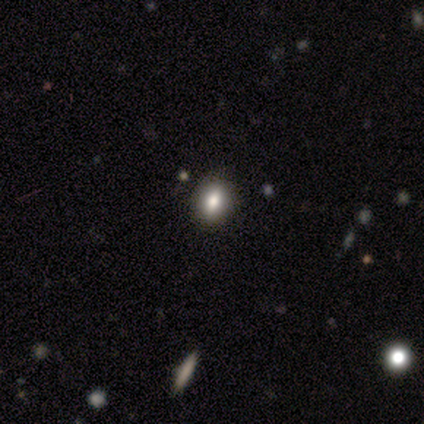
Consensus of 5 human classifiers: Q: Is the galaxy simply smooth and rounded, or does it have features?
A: smooth — 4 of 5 (80%).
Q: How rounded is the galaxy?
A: round — 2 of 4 (50%, tied with in between).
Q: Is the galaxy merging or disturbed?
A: none — 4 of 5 (80%).